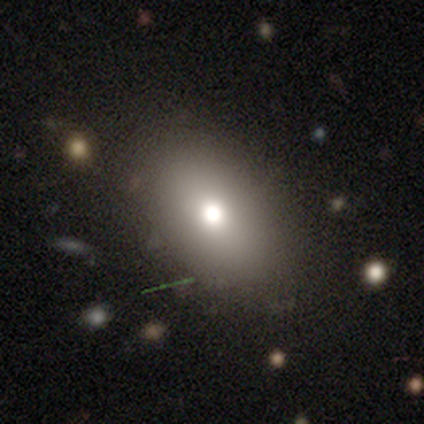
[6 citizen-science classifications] Morphology: type=smooth (83%); roundness=round (60%); merging=none (67%).